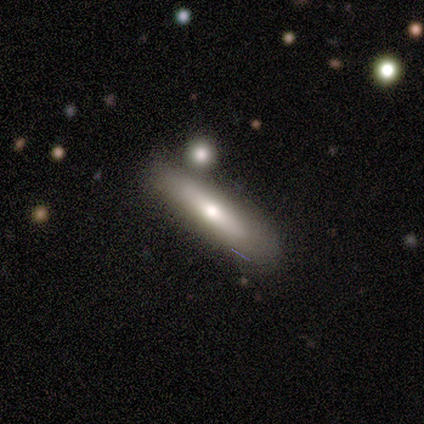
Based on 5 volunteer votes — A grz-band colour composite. It shows a smooth galaxy with no disk features (80%) that is cigar-shaped (75%). Merging: none (100%).